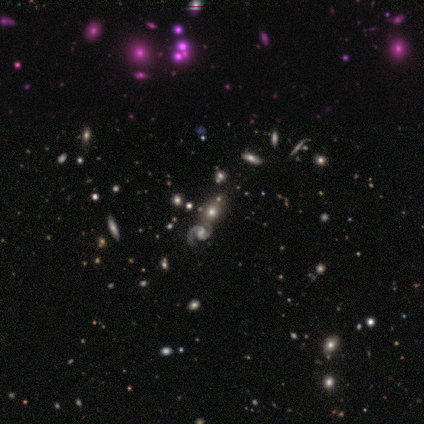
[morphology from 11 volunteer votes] Q: Smooth or featured?
A: featured or disk (36%); tied with: star or artifact (36%)
Q: Edge-on disk?
A: no (100%)
Q: Bar?
A: weak (75%); runner-up: no (25%)
Q: Spiral arms?
A: yes (100%)
Q: Spiral winding?
A: medium (50%); tied with: loose (50%)
Q: Spiral arm count?
A: 2 (100%)
Q: Bulge size?
A: moderate (100%)
Q: Merging?
A: none (71%); runner-up: merger (29%)